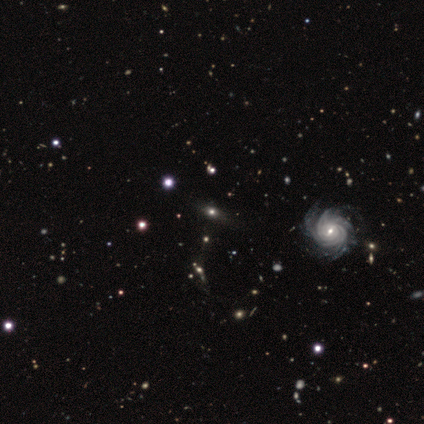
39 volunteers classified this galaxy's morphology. This is possibly a smooth galaxy (46%). How rounded: likely in between (61%). Merging: likely none (69%).